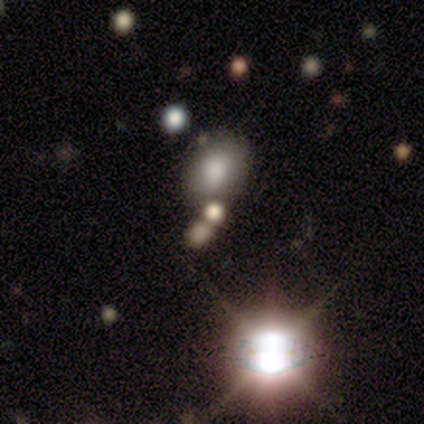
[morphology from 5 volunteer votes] smooth-or-featured: smooth: 80% | featured or disk: 20% | star or artifact: 0%
  how-rounded: round: 50% (tied) | in between: 50% (tied) | cigar-shaped: 0%
  merging: none: 60% | minor disturbance: 20% | merger: 20% | major disturbance: 0%